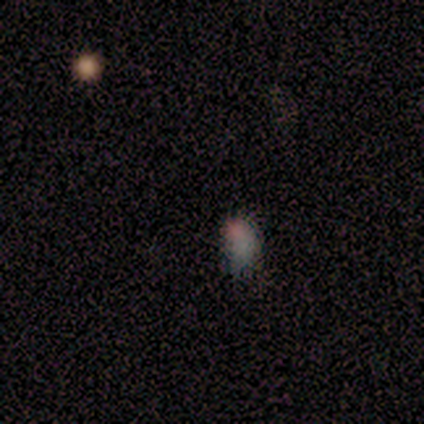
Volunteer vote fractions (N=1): smooth_or_featured: star or artifact (p=1.00)